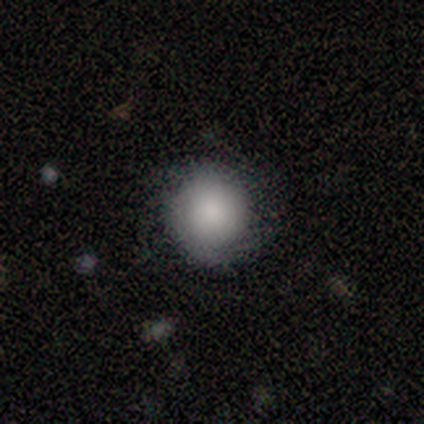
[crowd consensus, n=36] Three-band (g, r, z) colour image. It shows a smooth galaxy with no disk features (58%) that is round (95%). Merging: none (83%).